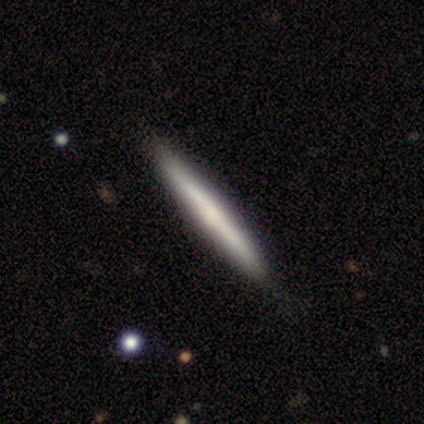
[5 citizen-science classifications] featured or disk 60%, smooth 20%, star or artifact 20%. Down the decision tree: edge-on disk — yes (100%); edge-on bulge — none (67%); merging — none (100%).